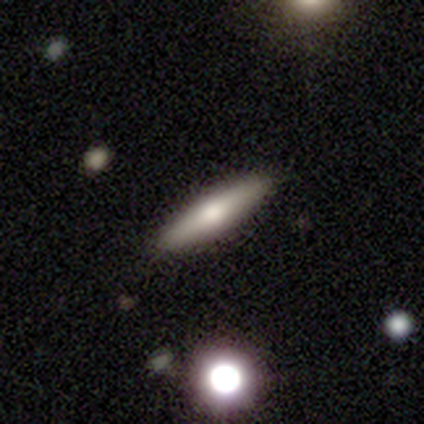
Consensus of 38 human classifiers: This appears to be a smooth galaxy with no disk features (68%) that is cigar-shaped (88%). Merging: none (89%).